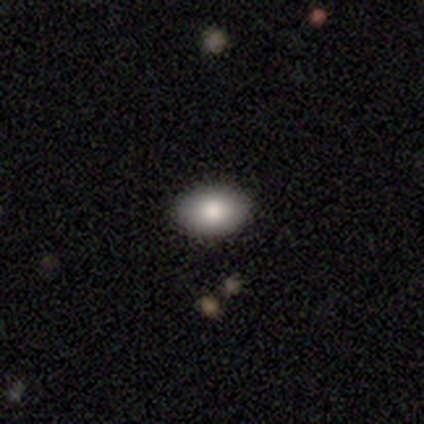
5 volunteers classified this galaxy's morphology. Smooth or featured? 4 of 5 (80%) said smooth. How rounded? 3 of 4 (75%) said in between. Merging? 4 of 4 (100%) said none.